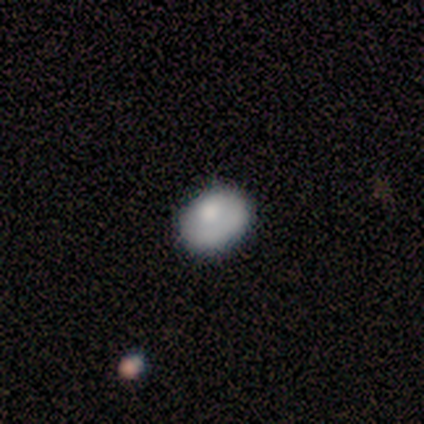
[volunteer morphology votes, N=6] Overall: smooth (67%; featured or disk 33%). How rounded: in between (75%). Merging: none (67%; minor disturbance 33%).